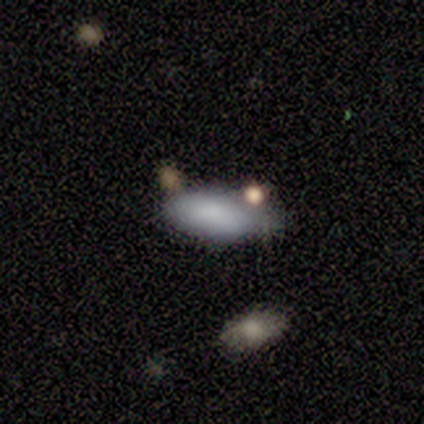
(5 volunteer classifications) A smooth galaxy with no disk features (100%) that is in between round and cigar-shaped (80%).

Vote fractions:
- Smooth or featured? smooth: 100% / featured or disk: 0% / star or artifact: 0%
- How rounded? in between: 80% / cigar-shaped: 20% / round: 0%
- Merging? minor disturbance: 80% / none: 20% / major disturbance: 0% / merger: 0%